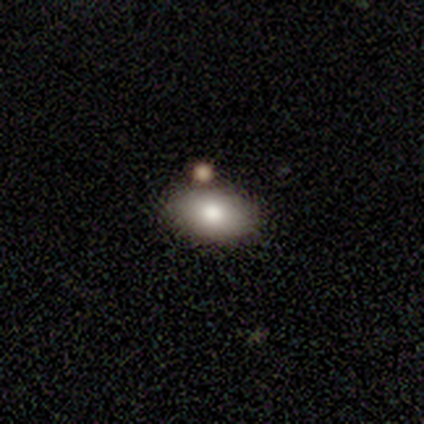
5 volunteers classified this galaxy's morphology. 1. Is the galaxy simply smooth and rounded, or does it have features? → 60% smooth, 20% featured or disk, 20% star or artifact.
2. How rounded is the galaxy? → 100% in between, 0% round, 0% cigar-shaped.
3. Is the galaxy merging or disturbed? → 75% none, 25% merger, 0% minor disturbance, 0% major disturbance.